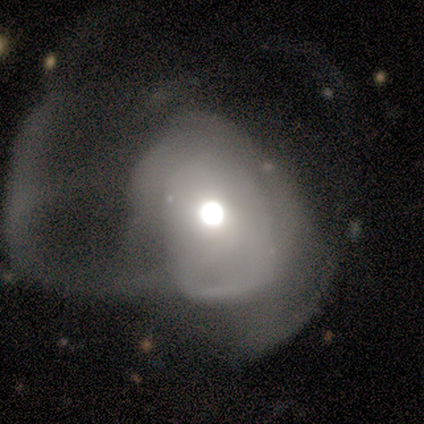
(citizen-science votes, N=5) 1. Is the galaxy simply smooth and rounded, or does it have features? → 60% featured or disk, 40% smooth, 0% star or artifact.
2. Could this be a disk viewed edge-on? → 100% no, 0% yes.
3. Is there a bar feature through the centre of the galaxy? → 100% no, 0% strong, 0% weak.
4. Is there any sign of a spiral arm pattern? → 100% no, 0% yes.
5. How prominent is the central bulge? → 67% large, 33% moderate, 0% dominant, 0% small, 0% none.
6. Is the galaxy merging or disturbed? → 100% major disturbance, 0% none, 0% minor disturbance, 0% merger.